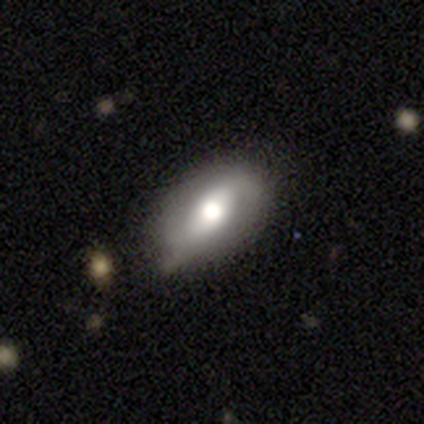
smooth 54%, featured or disk 44%, star or artifact 3%. Down the decision tree: how rounded — in between (90%); merging — minor disturbance (58%).